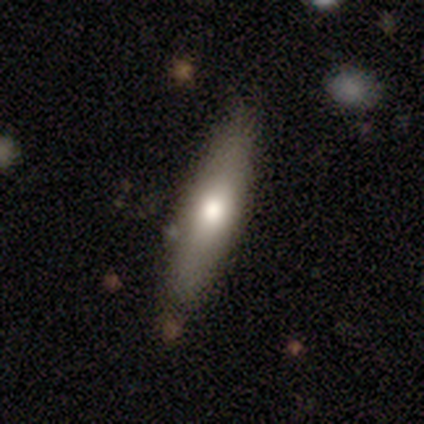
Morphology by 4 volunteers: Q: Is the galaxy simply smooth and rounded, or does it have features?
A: smooth — 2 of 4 (50%, tied with featured or disk).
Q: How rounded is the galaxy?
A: cigar-shaped — 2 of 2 (100%).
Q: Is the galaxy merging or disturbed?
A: none — 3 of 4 (75%).